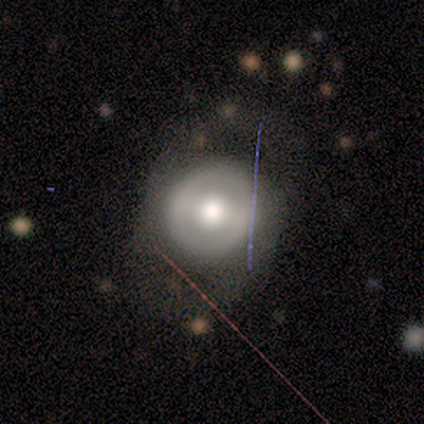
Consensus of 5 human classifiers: Overall: smooth (60%; featured or disk 20%). How rounded: round (100%). Merging: none (75%).